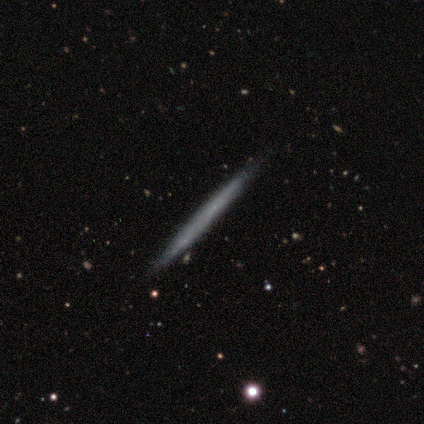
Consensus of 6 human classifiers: smooth_or_featured: smooth (p=0.50) [tied with: featured or disk p=0.50]
how_rounded: cigar-shaped (p=1.00)
merging: none (p=1.00)